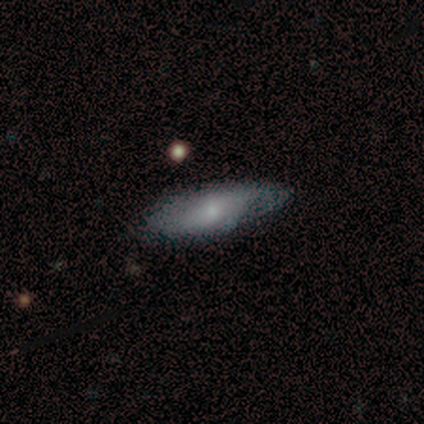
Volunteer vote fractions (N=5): This is clearly a featured or disk galaxy (80%). It is likely not viewed edge-on (75%). Bar: likely no (67%). Spiral arm pattern: clearly yes (100%). Spiral arm count: likely 2 (67%). Spiral winding: likely medium (67%). Central bulge: likely small (67%). Merging: likely minor disturbance (60%).